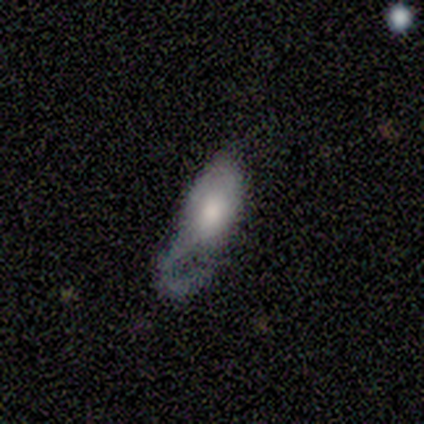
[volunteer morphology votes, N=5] Smooth or featured? 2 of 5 (40%, tied with featured or disk) said smooth. How rounded? 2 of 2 (100%) said in between. Merging? 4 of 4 (100%) said major disturbance.